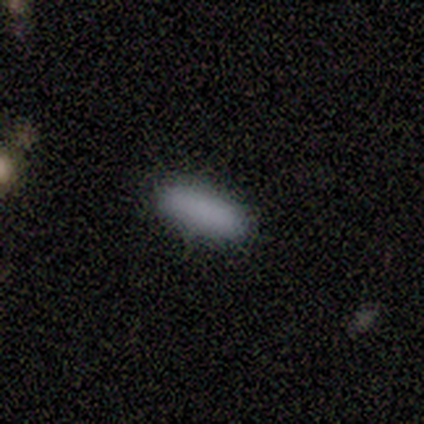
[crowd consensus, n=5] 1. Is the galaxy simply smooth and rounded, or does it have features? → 100% smooth, 0% featured or disk, 0% star or artifact.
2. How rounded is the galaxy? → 60% in between, 40% cigar-shaped, 0% round.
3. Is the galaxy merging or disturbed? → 100% none, 0% minor disturbance, 0% major disturbance, 0% merger.